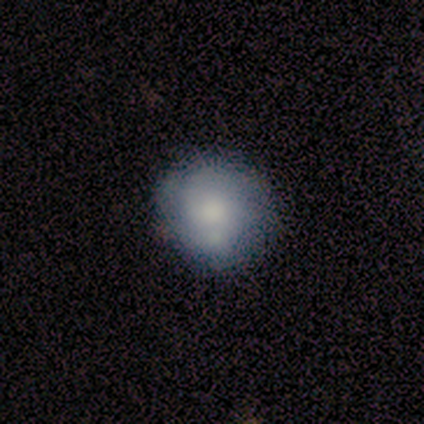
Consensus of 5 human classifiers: Smooth or featured?
  - smooth: 80% *
  - featured or disk: 20%
  - star or artifact: 0%
How rounded?
  - round: 75% *
  - in between: 25%
  - cigar-shaped: 0%
Merging?
  - none: 40% * (tied)
  - minor disturbance: 40% * (tied)
  - merger: 20%
  - major disturbance: 0%